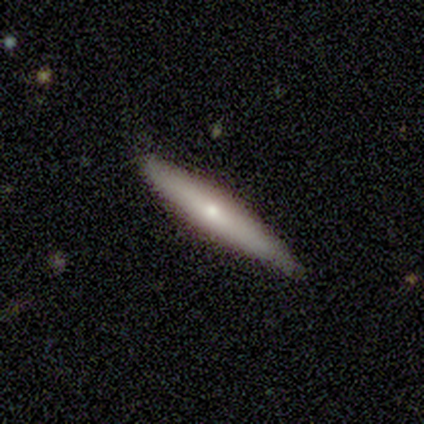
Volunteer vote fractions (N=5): Smooth or featured? smooth (80%)
How rounded? cigar-shaped (100%)
Merging? none (80%)